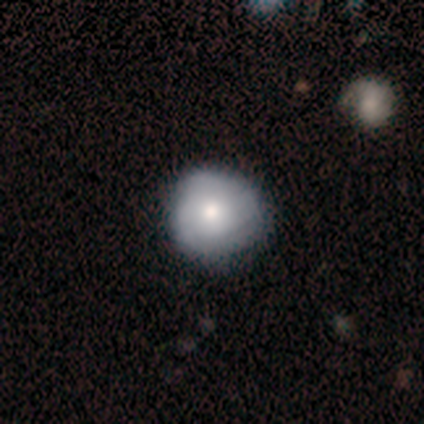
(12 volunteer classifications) Q: Smooth or featured?
A: featured or disk (58%); runner-up: smooth (42%)
Q: Edge-on disk?
A: no (100%)
Q: Bar?
A: no (100%)
Q: Spiral arms?
A: yes (57%); runner-up: no (43%)
Q: Spiral winding?
A: tight (100%)
Q: Spiral arm count?
A: can't tell (50%); runner-up: 1 (25%)
Q: Bulge size?
A: moderate (100%)
Q: Merging?
A: none (67%); runner-up: minor disturbance (33%)